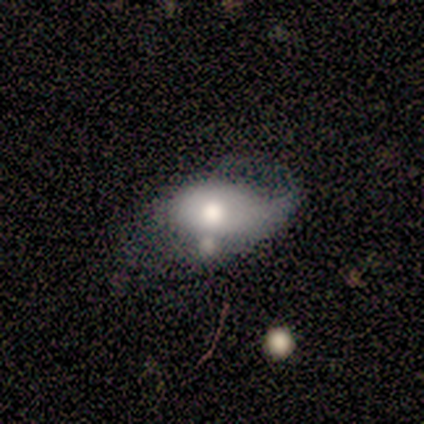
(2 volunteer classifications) Q: Smooth or featured?
A: smooth (100%)
Q: How rounded?
A: in between (100%)
Q: Merging?
A: none (50%); tied with: minor disturbance (50%)